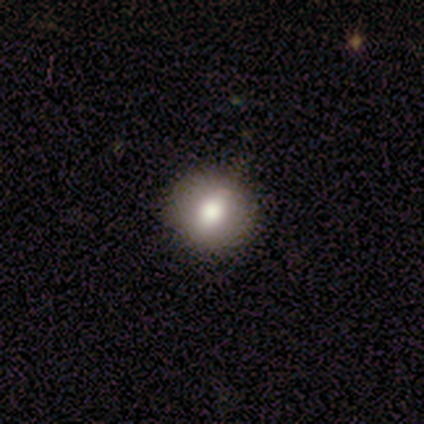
This appears to be a smooth galaxy with no disk features (100%) that is round (100%). Merging: none (100%).